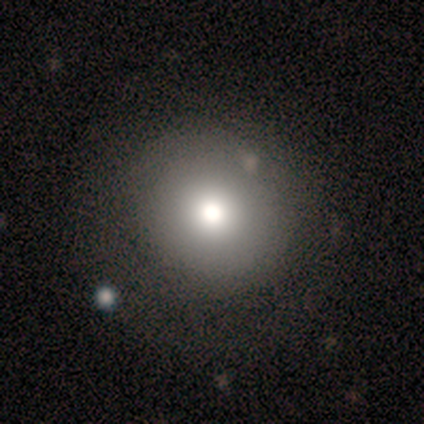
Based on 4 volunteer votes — smooth_or_featured: smooth (p=1.00)
how_rounded: round (p=1.00)
merging: none (p=0.75) [alt: minor disturbance p=0.25]